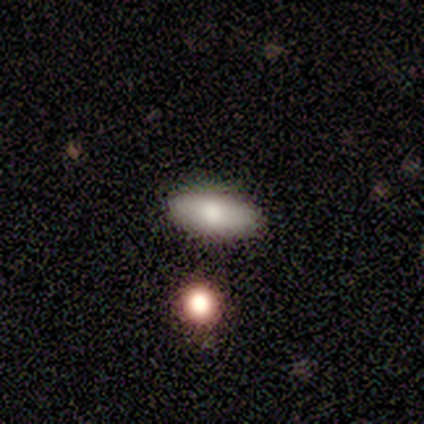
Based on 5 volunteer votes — Smooth or featured? 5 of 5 (100%) said smooth. How rounded? 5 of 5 (100%) said in between. Merging? 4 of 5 (80%) said none.